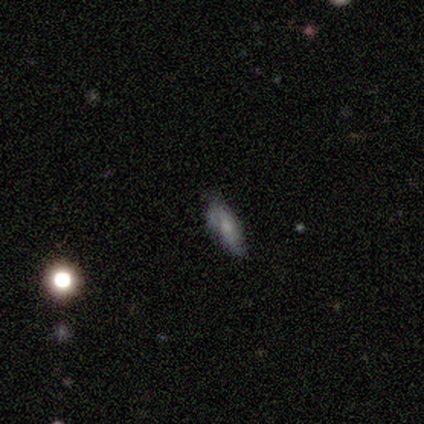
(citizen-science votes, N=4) Overall: smooth (50%, tied with featured or disk). How rounded: in between (100%). Merging: minor disturbance (50%; none 25%).